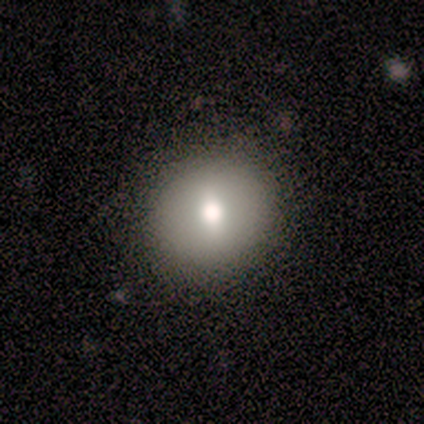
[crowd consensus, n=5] smooth 80%, featured or disk 20%, star or artifact 0%. Down the decision tree: how rounded — round (100%); merging — none (80%).